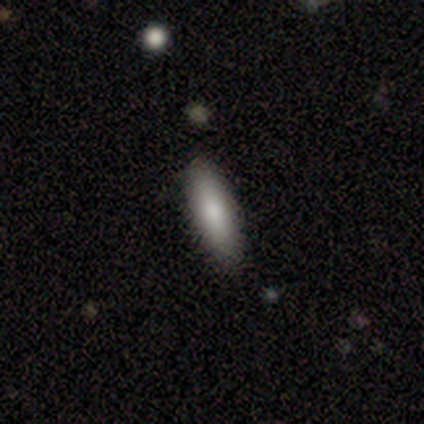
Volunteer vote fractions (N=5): Smooth or featured? smooth (100%)
How rounded? in between (60%)
Merging? none (100%)